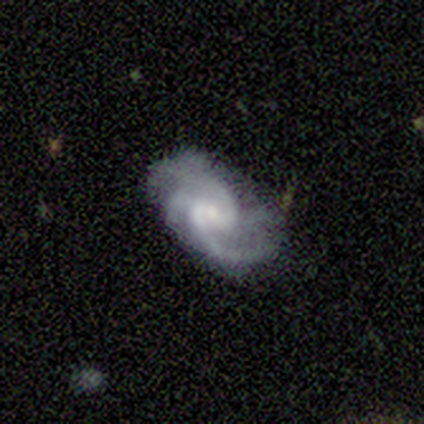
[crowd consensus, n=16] Q: Smooth or featured?
A: featured or disk (94%); runner-up: smooth (6%)
Q: Edge-on disk?
A: no (100%)
Q: Bar?
A: no (67%); runner-up: weak (33%)
Q: Spiral arms?
A: yes (100%)
Q: Spiral winding?
A: medium (53%); runner-up: tight (33%)
Q: Spiral arm count?
A: 2 (33%); tied with: 3 (33%)
Q: Bulge size?
A: small (73%); runner-up: moderate (20%)
Q: Merging?
A: none (69%); runner-up: minor disturbance (19%)